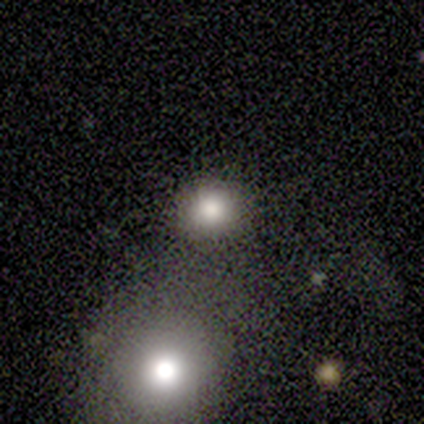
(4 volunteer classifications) smooth-or-featured: smooth: 75% | star or artifact: 25% | featured or disk: 0%
  how-rounded: round: 100% | in between: 0% | cigar-shaped: 0%
  merging: none: 100% | minor disturbance: 0% | major disturbance: 0% | merger: 0%